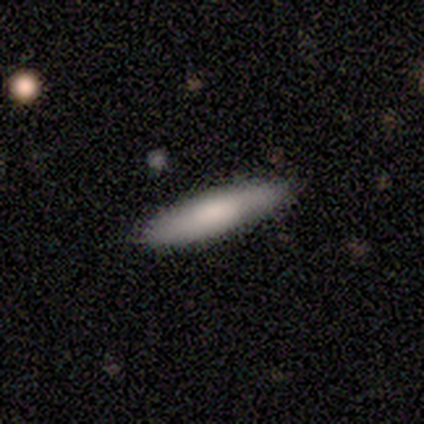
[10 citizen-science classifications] Smooth or featured?
  - smooth: 80% *
  - featured or disk: 20%
  - star or artifact: 0%
How rounded?
  - cigar-shaped: 100% *
  - round: 0%
  - in between: 0%
Merging?
  - none: 80% *
  - minor disturbance: 20%
  - major disturbance: 0%
  - merger: 0%